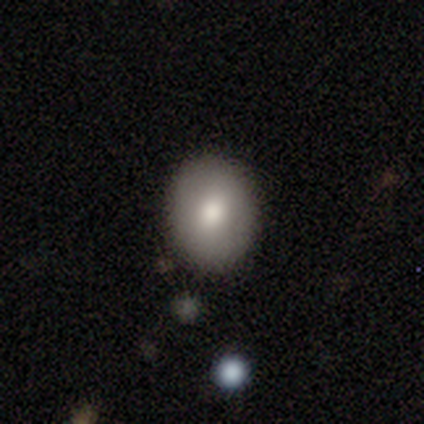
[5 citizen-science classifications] Overall: smooth (80%). How rounded: round (100%). Merging: none (75%).